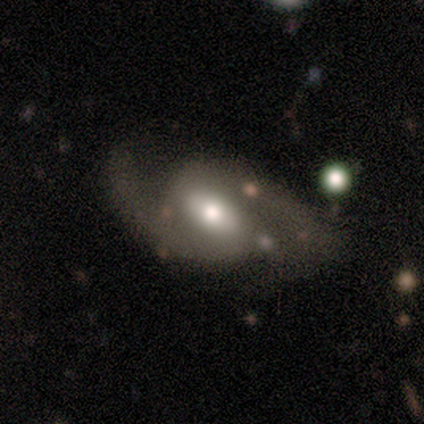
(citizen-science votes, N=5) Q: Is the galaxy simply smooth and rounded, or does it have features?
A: featured or disk — 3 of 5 (60%).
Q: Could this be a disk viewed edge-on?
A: no — 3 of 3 (100%).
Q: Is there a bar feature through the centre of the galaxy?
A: weak — 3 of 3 (100%).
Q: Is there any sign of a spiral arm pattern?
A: yes — 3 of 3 (100%).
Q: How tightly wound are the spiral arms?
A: loose — 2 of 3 (67%).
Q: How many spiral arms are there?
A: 2 — 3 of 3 (100%).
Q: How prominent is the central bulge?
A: moderate — 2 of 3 (67%).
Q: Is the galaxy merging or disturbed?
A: none — 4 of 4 (100%).